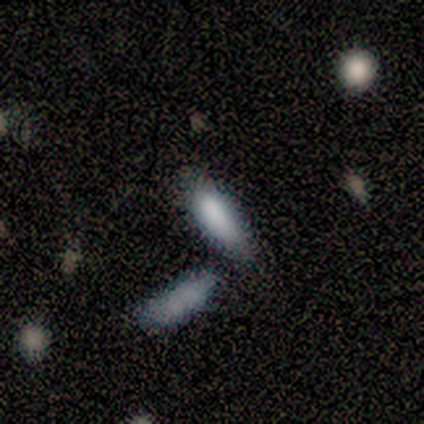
This is clearly a smooth galaxy (100%). How rounded: possibly in between (50%, tied with cigar-shaped). Merging: possibly merger (50%).